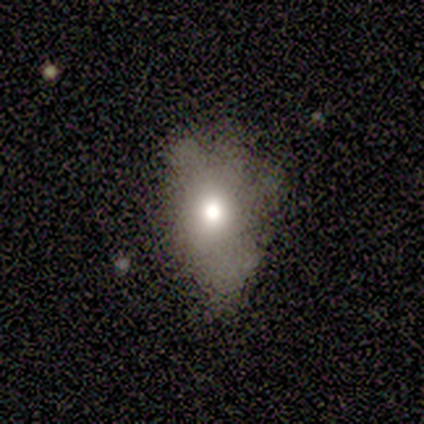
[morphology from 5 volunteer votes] Smooth or featured: smooth — 80% (star or artifact — 20%)
How rounded: in between — 100%
Merging: minor disturbance — 50% (none — 25%)